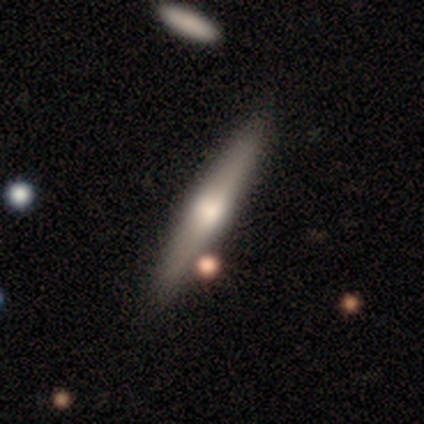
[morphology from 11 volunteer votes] A featured or disk galaxy (55%) viewed edge-on (100%) with a rounded central bulge (83%). Merging: none (82%).